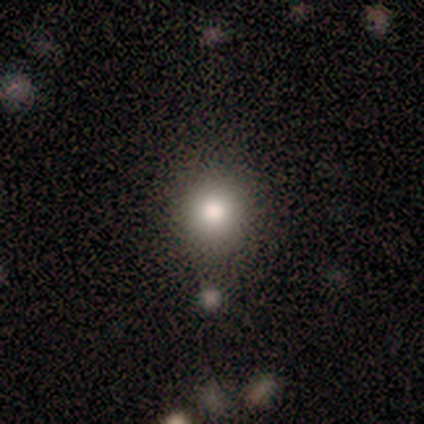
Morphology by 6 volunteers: A smooth galaxy with no disk features (83%) that is round (80%). Merging: none (60%).